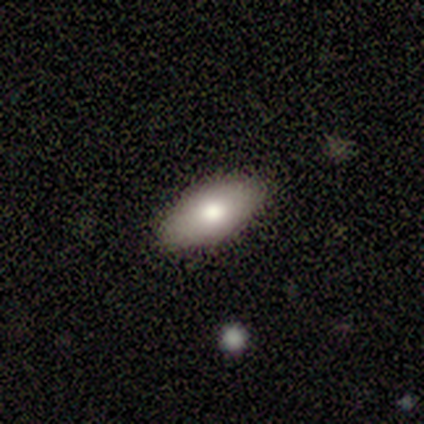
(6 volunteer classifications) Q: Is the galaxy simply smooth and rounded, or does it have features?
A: smooth — 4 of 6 (67%).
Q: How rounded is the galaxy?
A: in between — 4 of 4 (100%).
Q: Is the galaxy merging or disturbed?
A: none — 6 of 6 (100%).